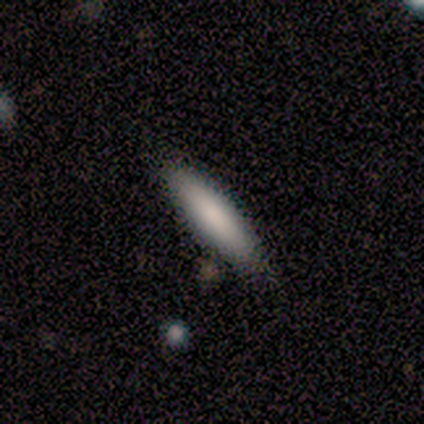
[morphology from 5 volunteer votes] smooth-or-featured: smooth: 100% | featured or disk: 0% | star or artifact: 0%
  how-rounded: cigar-shaped: 60% | in between: 40% | round: 0%
  merging: none: 80% | minor disturbance: 20% | major disturbance: 0% | merger: 0%